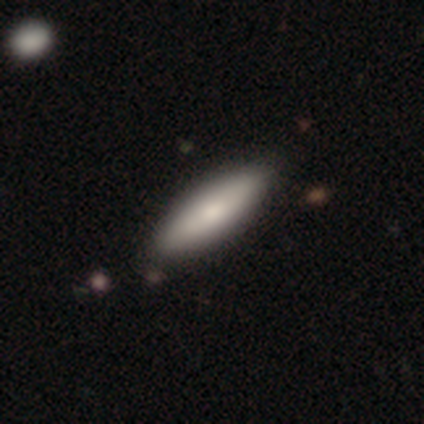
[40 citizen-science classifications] This appears to be a smooth galaxy with no disk features (78%) that is in between round and cigar-shaped (74%). Merging: none (59%).